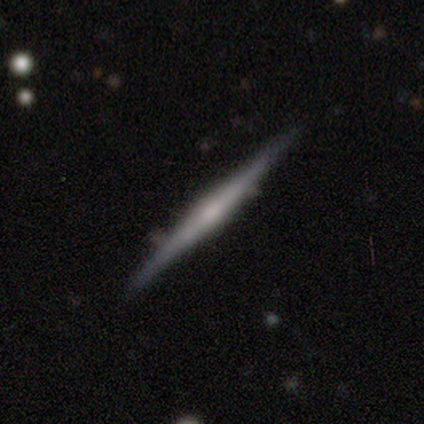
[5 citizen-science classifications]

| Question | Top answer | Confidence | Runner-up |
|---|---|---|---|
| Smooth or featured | featured or disk | 80% | smooth (20%) |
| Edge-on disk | yes | 100% | — |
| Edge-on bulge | rounded | 75% | none (25%) |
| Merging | none | 100% | — |